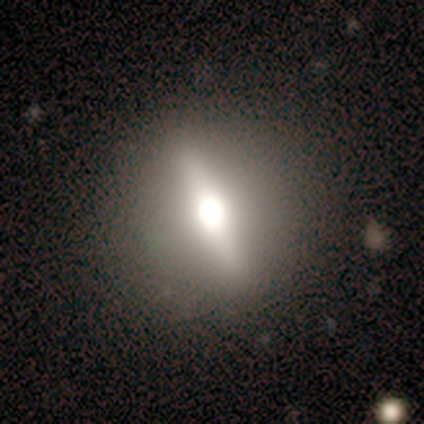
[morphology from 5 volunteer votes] Overall: featured or disk (80%). Edge-on disk: yes (75%). Edge-on bulge: rounded (100%). Merging: none (80%).